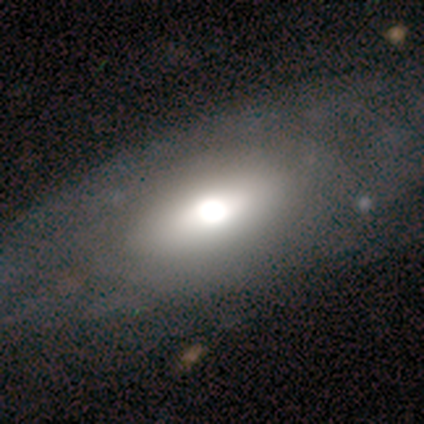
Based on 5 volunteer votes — Smooth or featured?
  - smooth: 40% * (tied)
  - star or artifact: 40% * (tied)
  - featured or disk: 20%
How rounded?
  - in between: 100% *
  - round: 0%
  - cigar-shaped: 0%
Merging?
  - none: 100% *
  - minor disturbance: 0%
  - major disturbance: 0%
  - merger: 0%